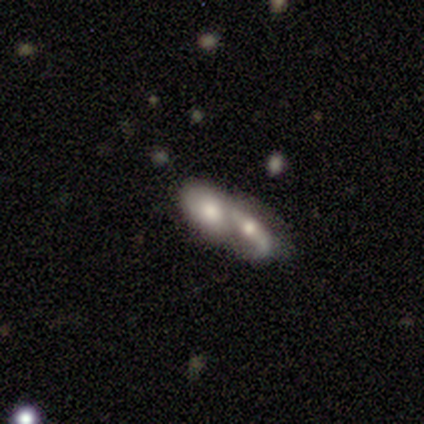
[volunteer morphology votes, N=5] Volunteers were most divided on "smooth or featured": smooth: 60%, featured or disk: 20%, star or artifact: 20%. More confident: how rounded — in between (100%); merging — merger (75%).